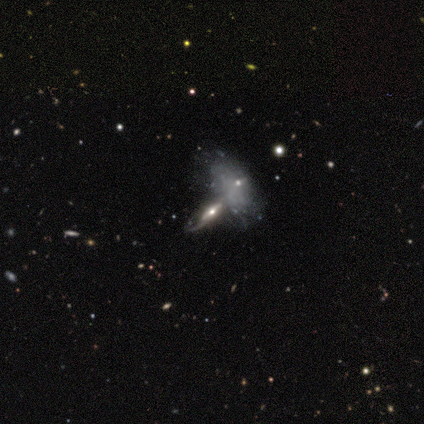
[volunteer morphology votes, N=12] type=featured or disk (67%); edge-on=yes (50%, tied with no); edge-on bulge=rounded (50%); merging=merger (60%).